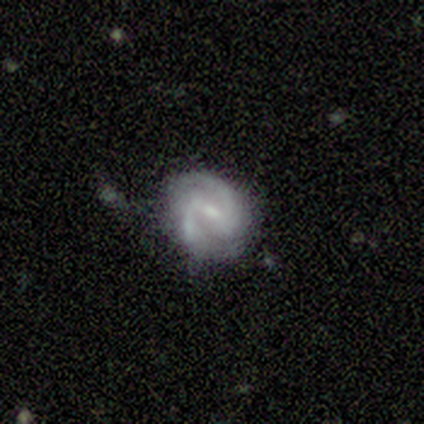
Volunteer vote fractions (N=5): This is clearly a featured or disk galaxy (80%). It is clearly not viewed edge-on (100%). Bar: likely strong (75%). Spiral arm pattern: clearly yes (100%). Spiral arm count: clearly 2 (100%). Spiral winding: possibly medium (50%, tied with loose). Central bulge: likely small (75%). Merging: clearly none (80%).